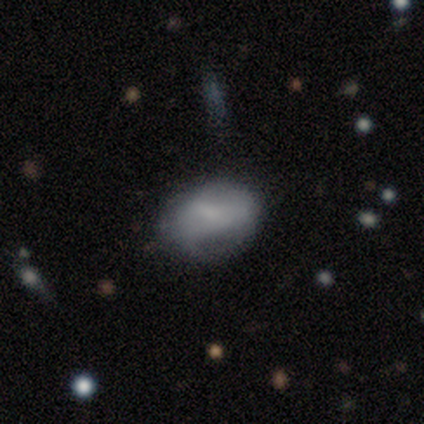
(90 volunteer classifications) Q: Smooth or featured?
A: smooth (58%); runner-up: featured or disk (31%)
Q: How rounded?
A: in between (87%); runner-up: round (13%)
Q: Merging?
A: none (54%); runner-up: minor disturbance (32%)